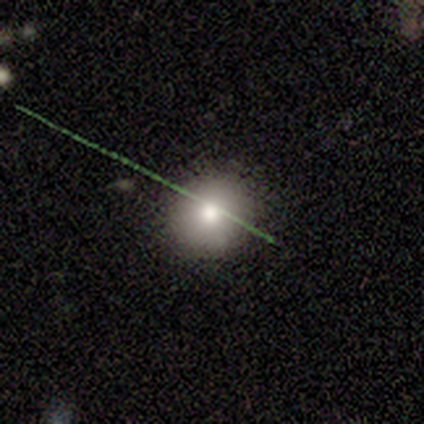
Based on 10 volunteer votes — Q: Smooth or featured?
A: smooth (90%); runner-up: star or artifact (10%)
Q: How rounded?
A: round (100%)
Q: Merging?
A: none (100%)